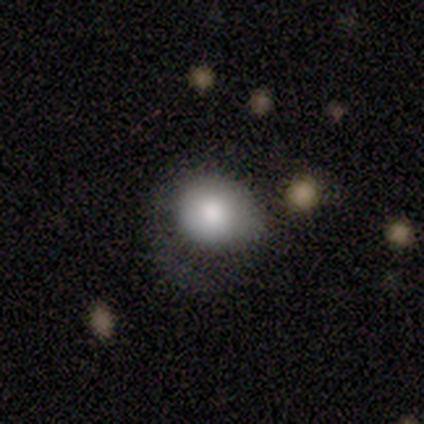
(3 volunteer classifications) smooth 67%, featured or disk 33%, star or artifact 0%. Down the decision tree: how rounded — round (100%); merging — minor disturbance (67%).